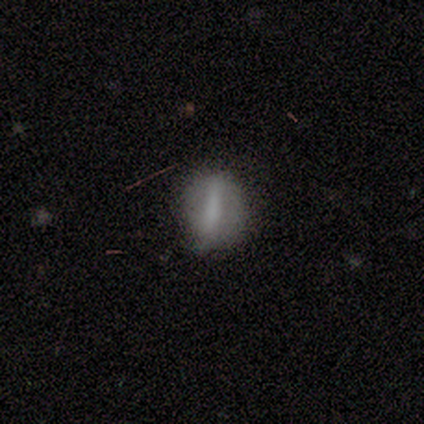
Smooth or featured?
  - featured or disk: 60% *
  - smooth: 40%
  - star or artifact: 0%
Edge-on disk?
  - no: 100% *
  - yes: 0%
Bar?
  - strong: 67% *
  - no: 33%
  - weak: 0%
Spiral arms?
  - no: 67% *
  - yes: 33%
Bulge size?
  - none: 67% *
  - small: 33%
  - dominant: 0%
  - large: 0%
  - moderate: 0%
Merging?
  - none: 80% *
  - minor disturbance: 20%
  - major disturbance: 0%
  - merger: 0%